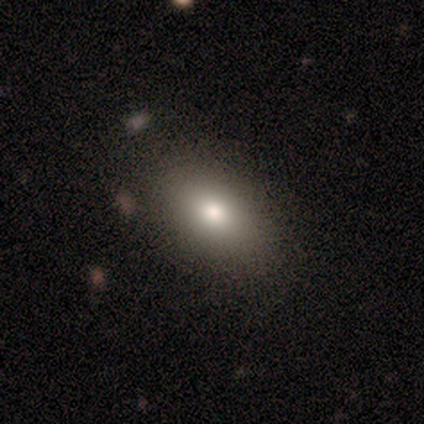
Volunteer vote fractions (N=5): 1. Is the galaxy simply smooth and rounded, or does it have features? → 100% smooth, 0% featured or disk, 0% star or artifact.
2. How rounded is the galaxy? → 100% in between, 0% round, 0% cigar-shaped.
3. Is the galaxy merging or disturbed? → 80% none, 20% minor disturbance, 0% major disturbance, 0% merger.